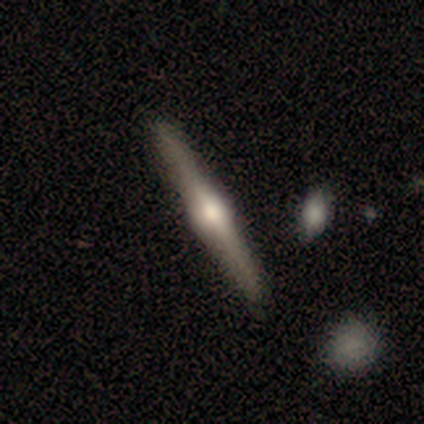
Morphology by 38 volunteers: Smooth or featured?
  - featured or disk: 87% *
  - smooth: 11%
  - star or artifact: 3%
Edge-on disk?
  - yes: 97% *
  - no: 3%
Edge-on bulge?
  - rounded: 91% *
  - none: 6%
  - boxy: 3%
Merging?
  - none: 89% *
  - minor disturbance: 8%
  - major disturbance: 3%
  - merger: 0%